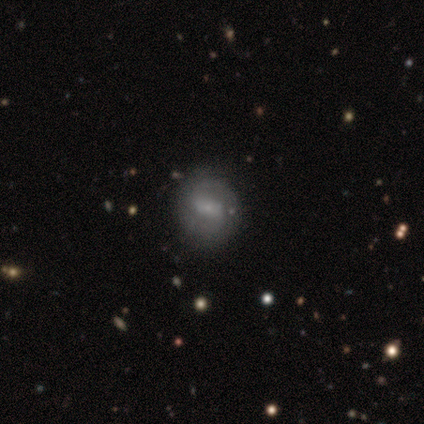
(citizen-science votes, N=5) smooth_or_featured: smooth (p=0.40) [tied with: featured or disk p=0.40]
how_rounded: round (p=1.00)
merging: none (p=0.75) [alt: minor disturbance p=0.25]